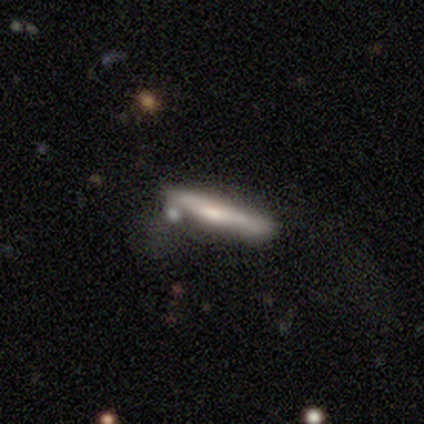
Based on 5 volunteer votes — A smooth galaxy with no disk features (80%) that is cigar-shaped (100%). Merging: none (60%).